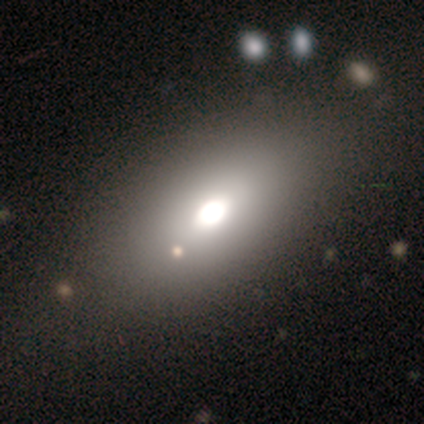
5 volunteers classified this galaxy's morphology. A smooth galaxy with no disk features (100%) that is in between round and cigar-shaped (100%). Merging: none (100%).